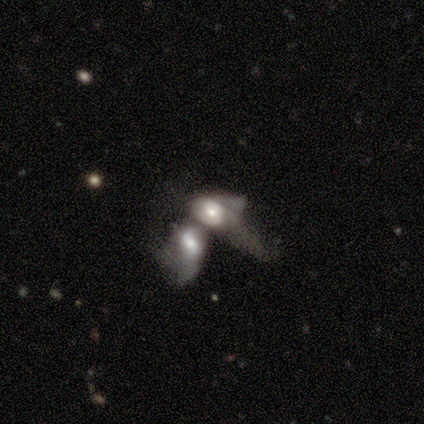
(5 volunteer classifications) Smooth or featured? 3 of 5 (60%) said smooth. How rounded? 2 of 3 (67%) said in between. Merging? 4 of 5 (80%) said merger.